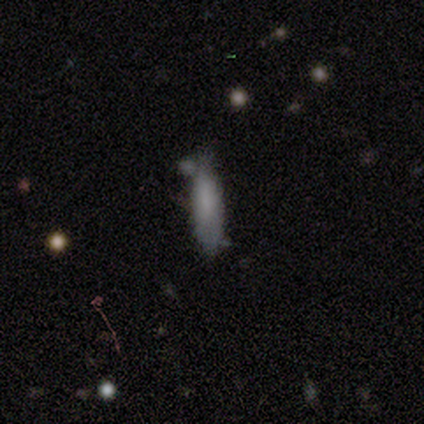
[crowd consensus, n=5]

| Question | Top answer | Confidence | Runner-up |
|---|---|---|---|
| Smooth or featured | smooth | 60% | featured or disk (20%) |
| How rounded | cigar-shaped | 67% | in between (33%) |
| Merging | none | 50% | tied: minor disturbance (50%) |